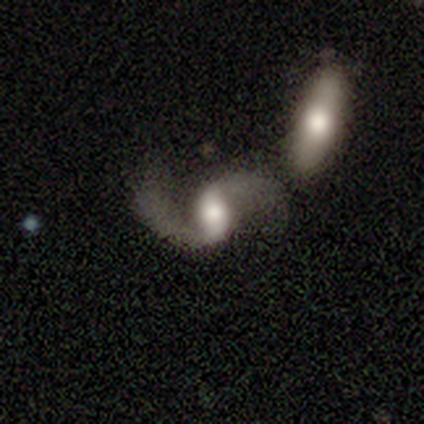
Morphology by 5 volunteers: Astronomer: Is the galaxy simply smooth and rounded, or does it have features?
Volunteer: featured or disk — 80%.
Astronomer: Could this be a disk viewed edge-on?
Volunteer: no — 75%.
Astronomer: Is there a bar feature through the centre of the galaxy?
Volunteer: strong — 67%.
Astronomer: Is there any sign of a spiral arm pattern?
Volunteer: yes — 100%.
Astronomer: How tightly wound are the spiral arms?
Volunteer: medium — 67%.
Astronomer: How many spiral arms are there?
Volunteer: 2 — 100%.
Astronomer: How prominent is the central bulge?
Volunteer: moderate — 67%.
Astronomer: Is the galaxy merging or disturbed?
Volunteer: none — 40%, tied with merger at 40%.